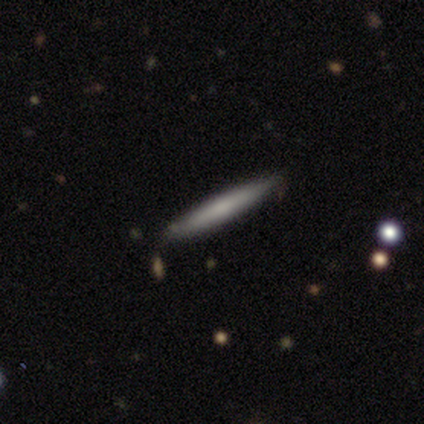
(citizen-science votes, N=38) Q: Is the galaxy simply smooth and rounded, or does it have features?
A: smooth — 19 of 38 (50%).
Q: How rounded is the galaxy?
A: cigar-shaped — 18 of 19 (95%).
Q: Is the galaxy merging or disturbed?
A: none — 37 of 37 (100%).